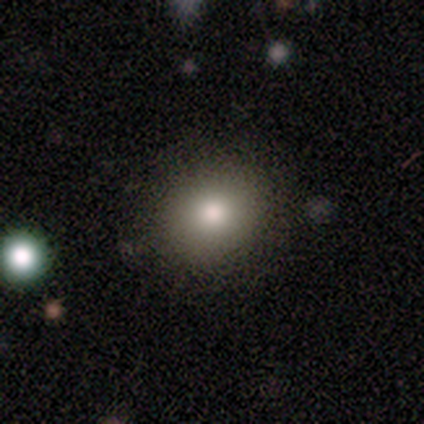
smooth 68%, star or artifact 24%, featured or disk 8%. Down the decision tree: how rounded — round (84%); merging — none (82%).